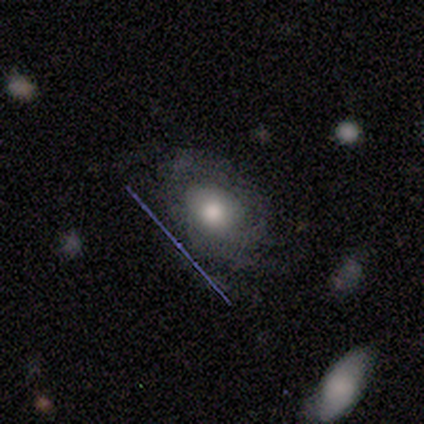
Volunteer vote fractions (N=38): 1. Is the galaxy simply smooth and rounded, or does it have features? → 58% smooth, 32% featured or disk, 11% star or artifact.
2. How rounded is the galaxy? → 59% in between, 41% round, 0% cigar-shaped.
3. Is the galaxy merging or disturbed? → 68% none, 18% minor disturbance, 15% major disturbance, 0% merger.